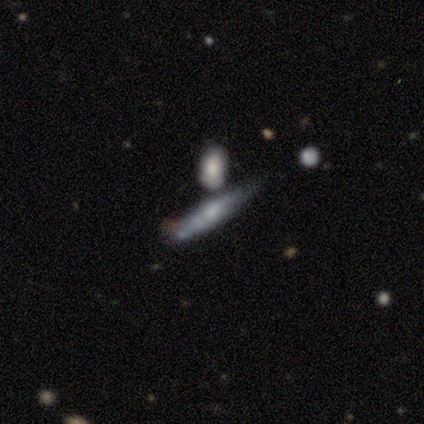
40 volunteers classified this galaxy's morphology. Smooth or featured?
  - featured or disk: 52% *
  - smooth: 38%
  - star or artifact: 10%
Edge-on disk?
  - yes: 62% *
  - no: 38%
Edge-on bulge?
  - rounded: 77% *
  - boxy: 15%
  - none: 8%
Merging?
  - merger: 44% *
  - none: 22%
  - major disturbance: 19%
  - minor disturbance: 14%